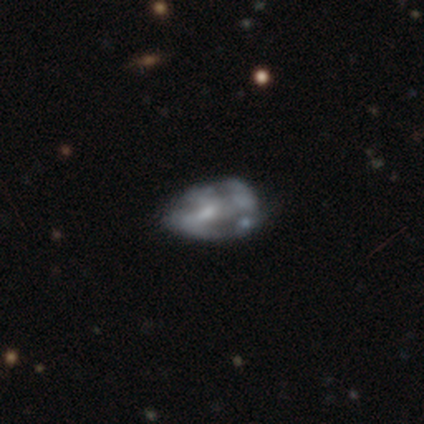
This is likely a featured or disk galaxy (79%). It is clearly not viewed edge-on (97%). Bar: likely no (64%). Spiral arm pattern: likely no (67%). Central bulge: marginally small (39%). Merging: marginally none (19%).